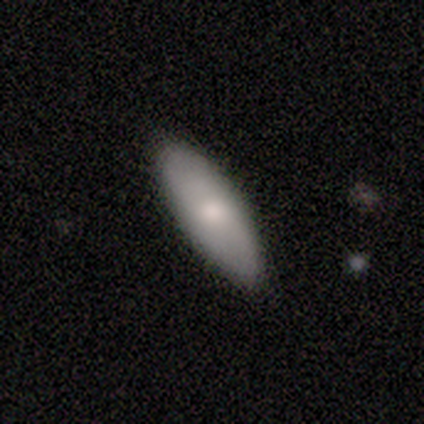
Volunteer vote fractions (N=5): smooth 100%, featured or disk 0%, star or artifact 0%. Down the decision tree: how rounded — cigar-shaped (60%); merging — none (60%).